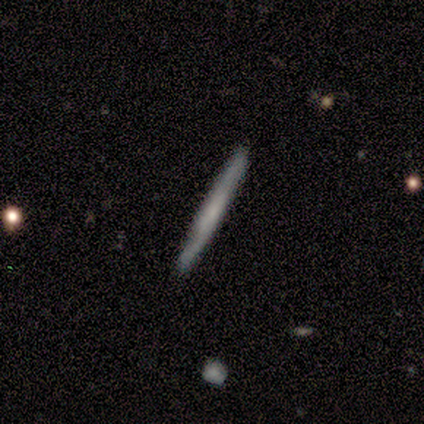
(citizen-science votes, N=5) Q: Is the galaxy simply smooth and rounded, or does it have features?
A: smooth — 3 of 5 (60%).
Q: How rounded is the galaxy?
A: cigar-shaped — 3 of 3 (100%).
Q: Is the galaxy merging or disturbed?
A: none — 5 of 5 (100%).